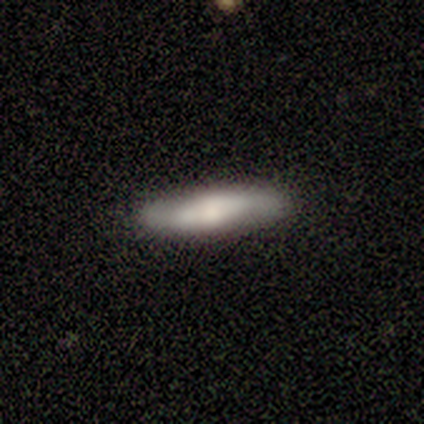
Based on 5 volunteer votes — Smooth or featured? 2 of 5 (40%, tied with featured or disk) said smooth. How rounded? 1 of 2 (50%, tied with cigar-shaped) said in between. Merging? 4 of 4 (100%) said none.